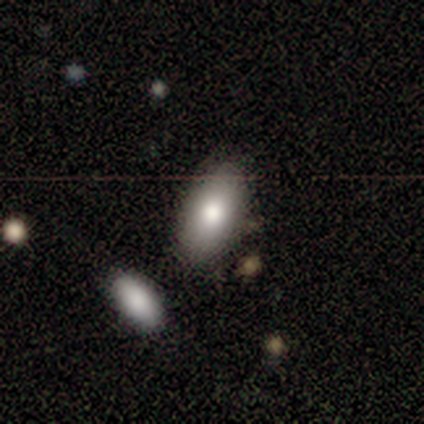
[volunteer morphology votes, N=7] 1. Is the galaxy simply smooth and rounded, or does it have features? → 86% smooth, 14% star or artifact, 0% featured or disk.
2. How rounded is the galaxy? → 100% in between, 0% round, 0% cigar-shaped.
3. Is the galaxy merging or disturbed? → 83% none, 17% merger, 0% minor disturbance, 0% major disturbance.